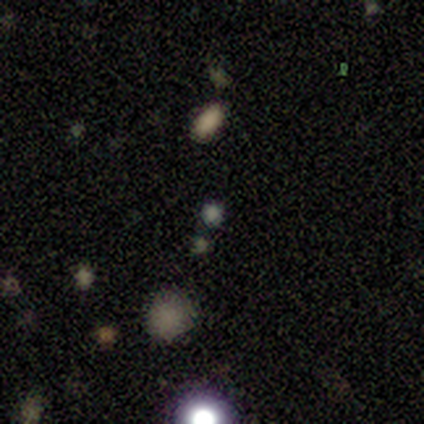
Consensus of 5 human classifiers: Q: Smooth or featured?
A: smooth (60%); runner-up: featured or disk (20%)
Q: How rounded?
A: round (67%); runner-up: in between (33%)
Q: Merging?
A: none (50%); tied with: minor disturbance (50%)